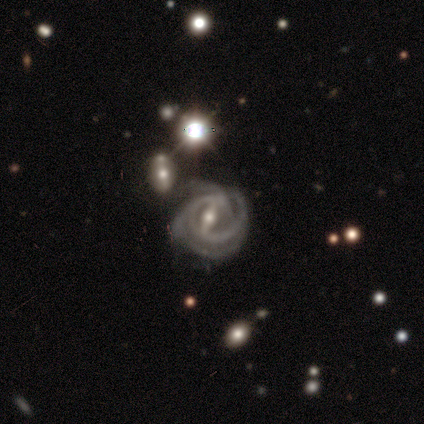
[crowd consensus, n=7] This appears to be a featured or disk galaxy (71%) with a strong bar (100%), 3 (50%) tight (100%) spiral arms (100%) and a moderate central bulge (75%). Merging: none (40%, tied with minor disturbance).